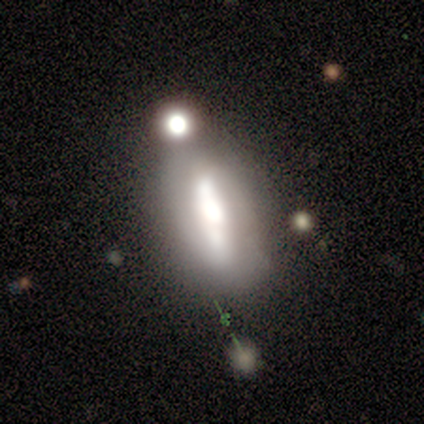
A featured or disk galaxy (68%) with a strong bar (78%), 2 (100%) medium (46%) spiral arms (57%) and a large central bulge (39%). Merging: none (56%).